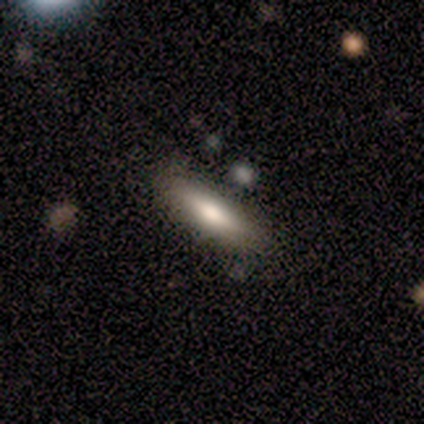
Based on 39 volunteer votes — smooth 77%, featured or disk 18%, star or artifact 5%. Down the decision tree: how rounded — cigar-shaped (67%); merging — none (95%).